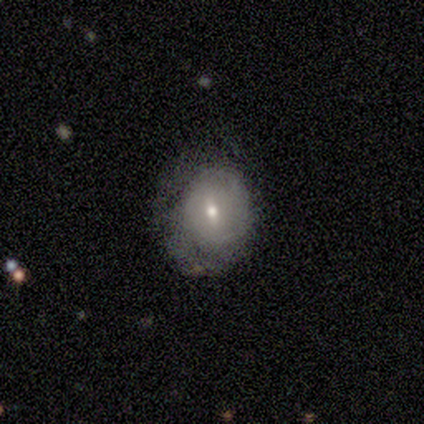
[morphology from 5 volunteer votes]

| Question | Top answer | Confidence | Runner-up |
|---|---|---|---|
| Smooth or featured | featured or disk | 60% | smooth (40%) |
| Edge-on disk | no | 67% | yes (33%) |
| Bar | weak | 50% | tied: no (50%) |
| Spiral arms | yes | 50% | tied: no (50%) |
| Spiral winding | tight | 100% | — |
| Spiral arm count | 2 | 100% | — |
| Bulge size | moderate | 50% | tied: small (50%) |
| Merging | minor disturbance | 40% | tied: major disturbance (40%) |